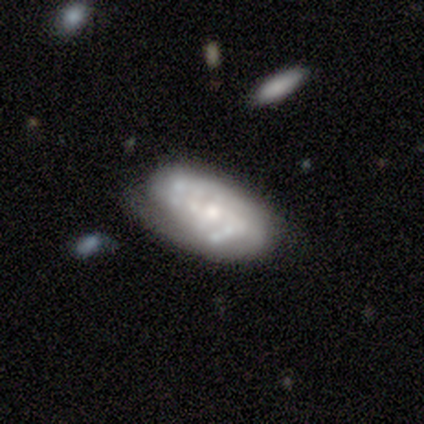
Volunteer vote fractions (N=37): This appears to be a featured or disk galaxy (78%) with no bar (68%), tight (45%) spiral arms (71%) and a moderate central bulge (54%). Merging: none (61%).